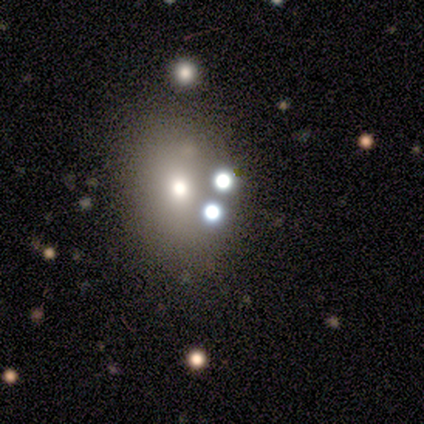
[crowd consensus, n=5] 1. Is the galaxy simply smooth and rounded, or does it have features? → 40% smooth (tied), 40% featured or disk (tied), 20% star or artifact.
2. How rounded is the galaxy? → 50% round (tied), 50% in between (tied), 0% cigar-shaped.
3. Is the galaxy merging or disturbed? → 100% none, 0% minor disturbance, 0% major disturbance, 0% merger.